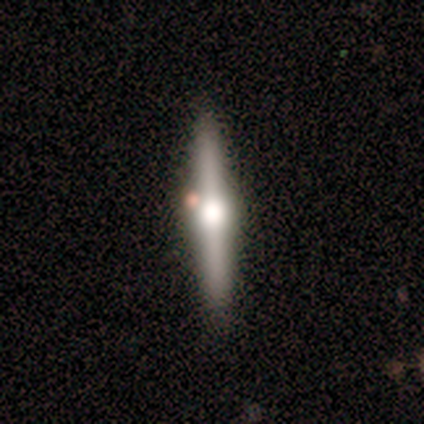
featured or disk 80%, smooth 20%, star or artifact 0%. Down the decision tree: edge-on disk — yes (100%); edge-on bulge — rounded (100%); merging — none (80%).